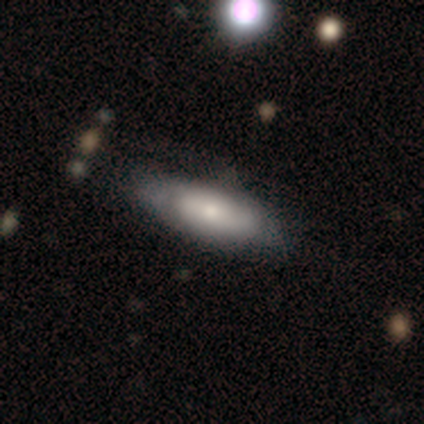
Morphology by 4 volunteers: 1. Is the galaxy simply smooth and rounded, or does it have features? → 75% smooth, 25% featured or disk, 0% star or artifact.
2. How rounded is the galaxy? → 67% in between, 33% cigar-shaped, 0% round.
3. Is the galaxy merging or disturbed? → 75% none, 25% minor disturbance, 0% major disturbance, 0% merger.